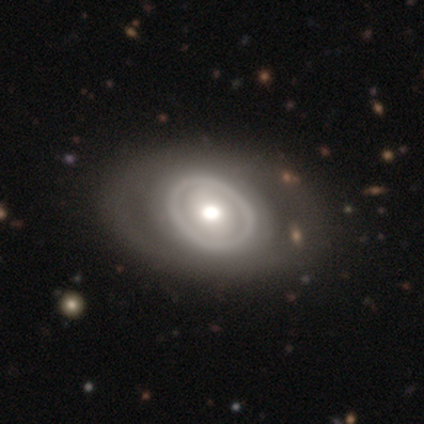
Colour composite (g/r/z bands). It shows a featured or disk galaxy (61%) with no bar (70%), no spiral arms (87%) and a moderate central bulge (70%). Merging: none (58%).